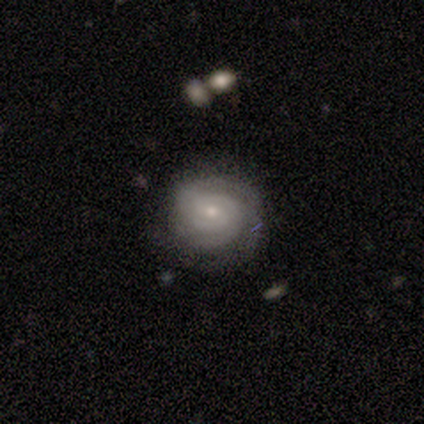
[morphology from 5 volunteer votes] This appears to be a featured or disk galaxy (100%) with a weak bar (60%), 2 (60%) tight (80%) spiral arms (100%) and a small central bulge (80%). Merging: none (80%).